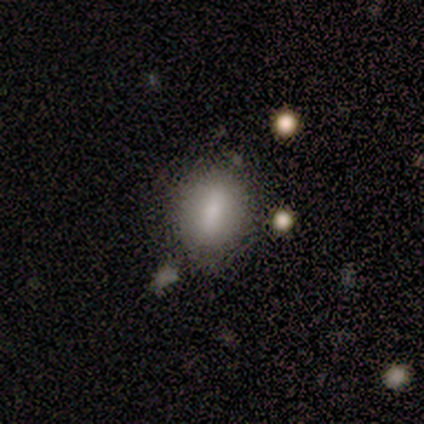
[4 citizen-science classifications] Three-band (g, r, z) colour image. It shows a smooth galaxy with no disk features (50%, tied with featured or disk) that is in between round and cigar-shaped (100%). Merging: none (75%).